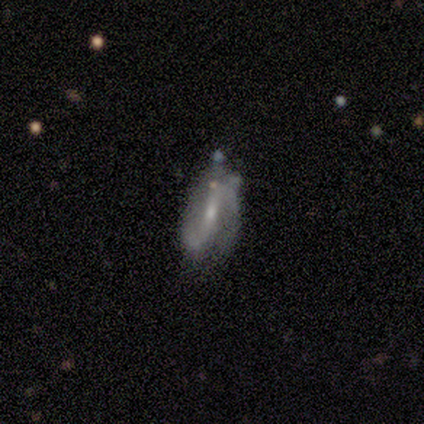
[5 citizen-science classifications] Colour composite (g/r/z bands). It shows a featured or disk galaxy (80%) with a weak bar (67%), 2 (100%) loose (67%) spiral arms (100%) and a moderate central bulge (67%). Merging: none (50%, tied with minor disturbance).